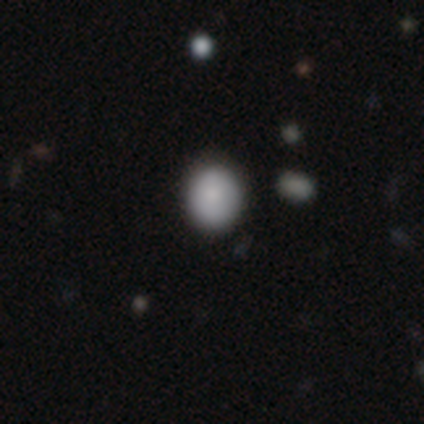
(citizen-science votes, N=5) Volunteers were most divided on "how rounded": round: 75%, in between: 25%, cigar-shaped: 0%. More confident: merging — none (100%); smooth or featured — smooth (80%).